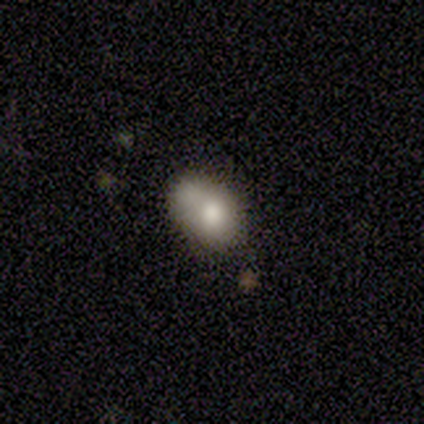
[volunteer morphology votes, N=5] A smooth galaxy with no disk features (80%) that is in between round and cigar-shaped (75%).

Vote fractions:
- Smooth or featured? smooth: 80% / star or artifact: 20% / featured or disk: 0%
- How rounded? in between: 75% / cigar-shaped: 25% / round: 0%
- Merging? none: 50% (tied) / minor disturbance: 50% (tied) / major disturbance: 0% / merger: 0%